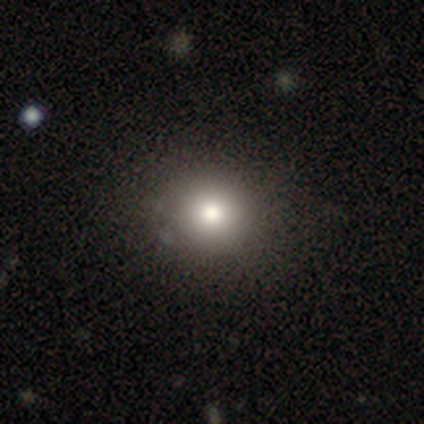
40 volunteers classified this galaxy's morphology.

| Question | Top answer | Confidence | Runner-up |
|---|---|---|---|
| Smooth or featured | smooth | 82% | star or artifact (10%) |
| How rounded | round | 97% | in between (3%) |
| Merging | none | 67% | minor disturbance (3%) |